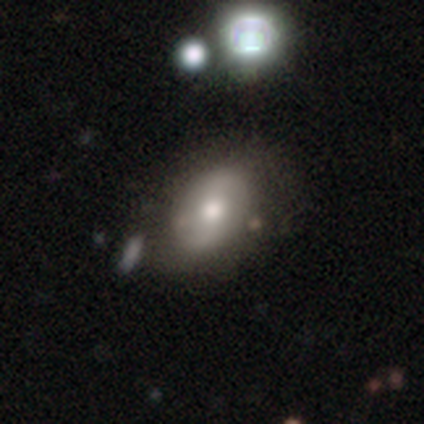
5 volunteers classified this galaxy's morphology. type=smooth (80%); roundness=round (50%, tied with in between); merging=none (100%).